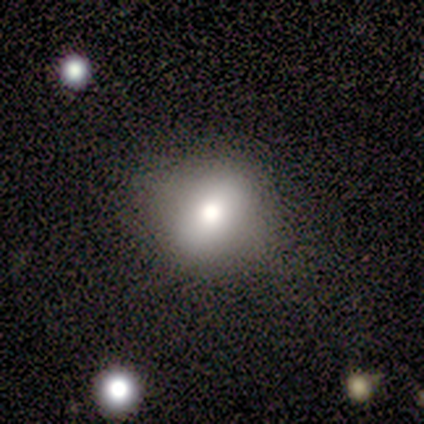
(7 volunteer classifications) Q: Smooth or featured?
A: smooth (71%); runner-up: featured or disk (14%)
Q: How rounded?
A: round (60%); runner-up: in between (40%)
Q: Merging?
A: none (67%); runner-up: minor disturbance (17%)